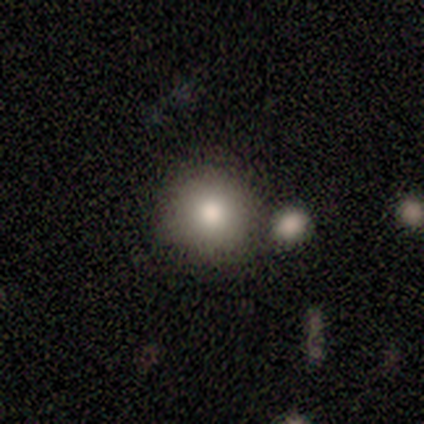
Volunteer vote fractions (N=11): Smooth or featured?
  - smooth: 82% *
  - featured or disk: 18%
  - star or artifact: 0%
How rounded?
  - round: 100% *
  - in between: 0%
  - cigar-shaped: 0%
Merging?
  - none: 64% *
  - merger: 18%
  - minor disturbance: 9%
  - major disturbance: 9%